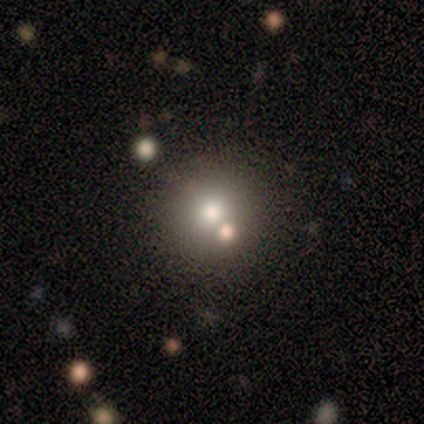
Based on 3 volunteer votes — Q: Smooth or featured?
A: smooth (67%); runner-up: featured or disk (33%)
Q: How rounded?
A: round (100%)
Q: Merging?
A: merger (67%); runner-up: minor disturbance (33%)